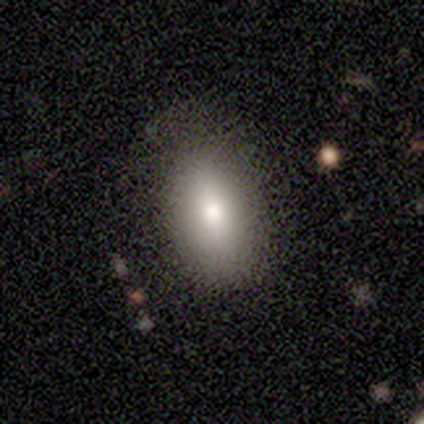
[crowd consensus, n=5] Volunteers were most divided on "merging": none: 60%, minor disturbance: 40%, major disturbance: 0%, merger: 0%. More confident: smooth or featured — smooth (100%); how rounded — in between (100%).